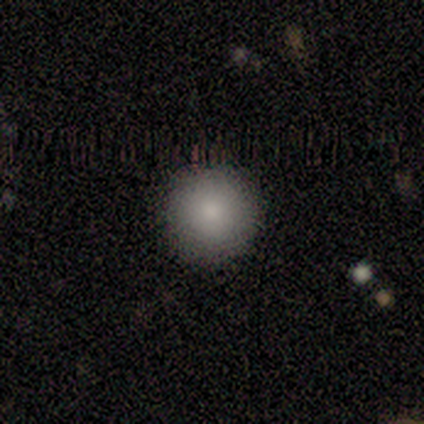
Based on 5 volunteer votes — smooth_or_featured: smooth (p=0.80) [alt: featured or disk p=0.20]
how_rounded: round (p=1.00)
merging: none (p=0.80) [alt: minor disturbance p=0.20]